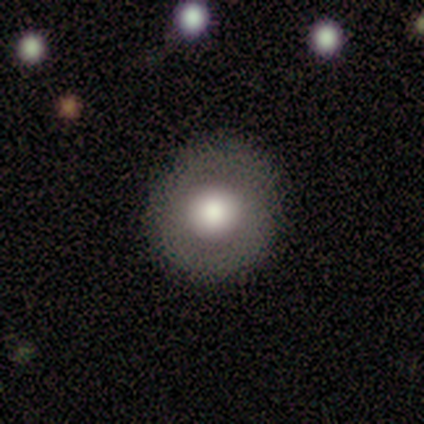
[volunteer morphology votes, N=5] Overall: smooth (60%; star or artifact 40%). How rounded: round (100%). Merging: none (67%; minor disturbance 33%).